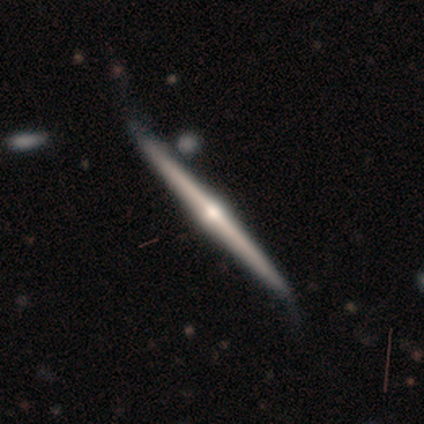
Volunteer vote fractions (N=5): Smooth or featured? 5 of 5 (100%) said featured or disk. Edge-on disk? 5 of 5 (100%) said yes. Edge-on bulge? 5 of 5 (100%) said rounded. Merging? 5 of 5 (100%) said none.